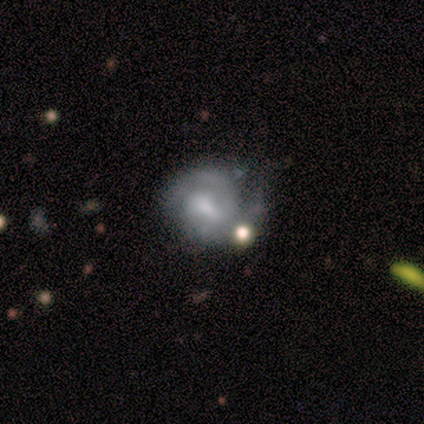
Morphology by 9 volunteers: Volunteers were most divided on "merging" (2-way tie): none: 38%, minor disturbance: 38%, major disturbance: 25%, merger: 0%. Remaining: edge-on disk — no (100%); spiral arms — yes (100%); smooth or featured — featured or disk (89%); spiral arm count — 2 (88%); bar — weak (75%); spiral winding — tight (50%); bulge size — small (38%).